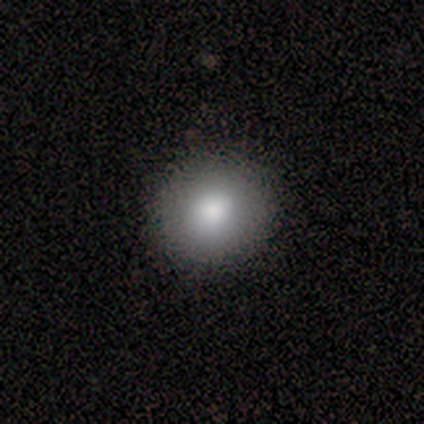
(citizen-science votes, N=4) Morphology: type=smooth (100%); roundness=round (75%); merging=none (100%).